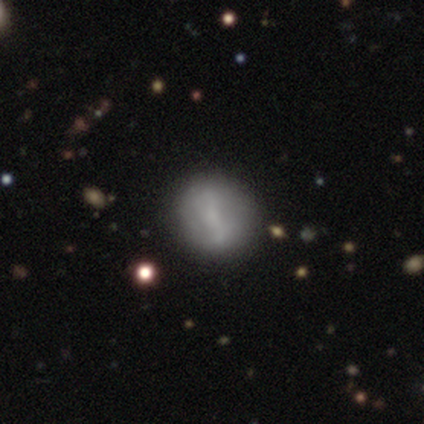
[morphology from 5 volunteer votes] smooth_or_featured: smooth (p=0.60) [alt: featured or disk p=0.40]
how_rounded: round (p=0.67) [alt: in between p=0.33]
merging: none (p=0.80) [alt: minor disturbance p=0.20]